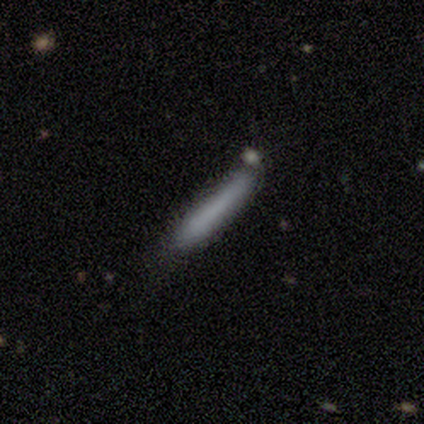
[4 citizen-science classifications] Smooth or featured? smooth (100%)
How rounded? cigar-shaped (75%)
Merging? none (75%)